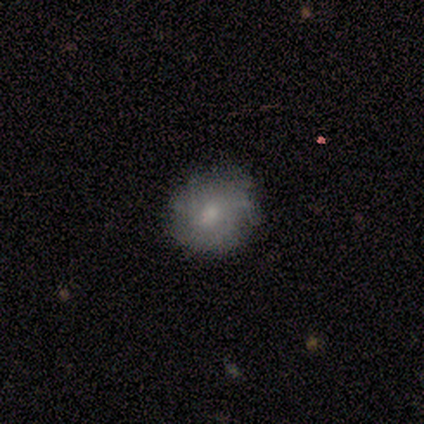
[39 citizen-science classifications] smooth-or-featured: smooth: 62% | featured or disk: 36% | star or artifact: 3%
  how-rounded: round: 71% | in between: 21% | cigar-shaped: 8%
  merging: none: 53% | minor disturbance: 11% | major disturbance: 5% | merger: 0%